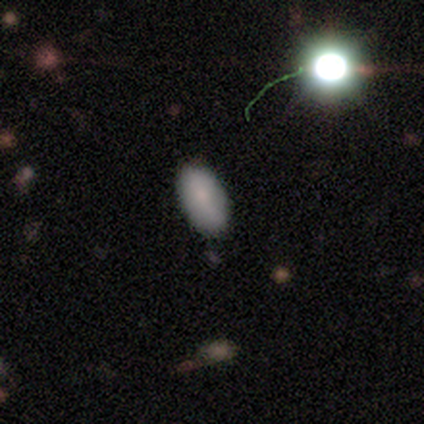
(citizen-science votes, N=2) Morphology: type=smooth (100%); roundness=in between (100%); merging=none (100%).